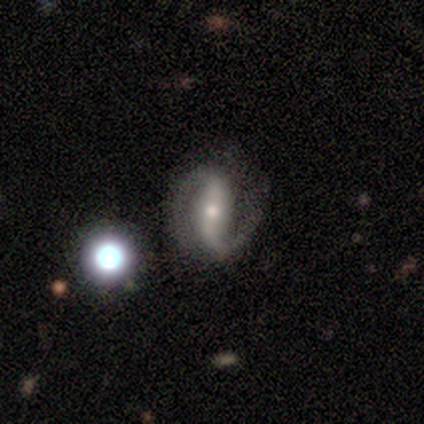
Smooth or featured?
  - featured or disk: 85% *
  - smooth: 8%
  - star or artifact: 8%
Edge-on disk?
  - no: 98% *
  - yes: 2%
Bar?
  - strong: 60% *
  - weak: 26%
  - no: 14%
Spiral arms?
  - yes: 98% *
  - no: 2%
Spiral winding?
  - loose: 41% *
  - medium: 33%
  - tight: 27%
Spiral arm count?
  - 2: 95% *
  - 1: 3%
  - can't tell: 2%
  - 3: 0%
  - 4: 0%
  - more than 4: 0%
Bulge size?
  - small: 48% *
  - moderate: 42%
  - large: 8%
  - none: 3%
  - dominant: 0%
Merging?
  - none: 38% *
  - minor disturbance: 11%
  - major disturbance: 3%
  - merger: 1%